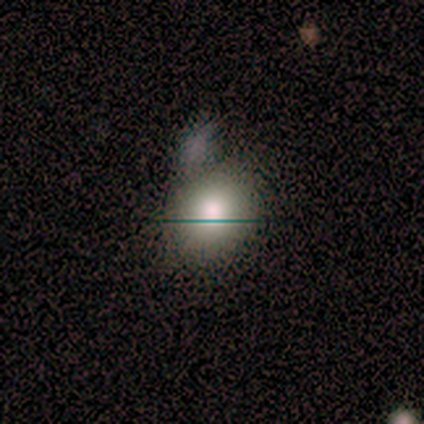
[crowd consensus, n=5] A smooth galaxy with no disk features (60%) that is round (67%). Merging: none (100%).